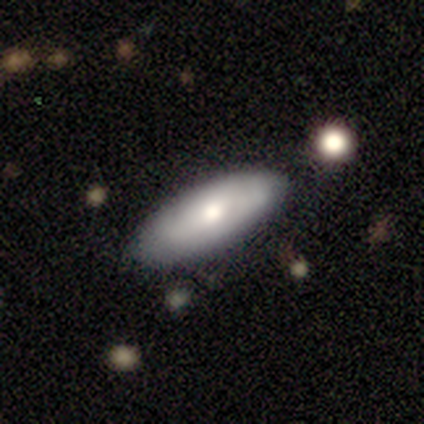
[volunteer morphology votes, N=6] Overall: smooth (100%). How rounded: in between (83%). Merging: none (50%, tied with minor disturbance).